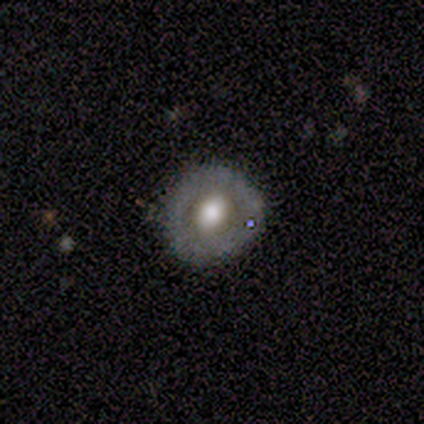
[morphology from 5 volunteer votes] Smooth or featured?
  - smooth: 60% *
  - featured or disk: 40%
  - star or artifact: 0%
How rounded?
  - round: 100% *
  - in between: 0%
  - cigar-shaped: 0%
Merging?
  - minor disturbance: 60% *
  - none: 40%
  - major disturbance: 0%
  - merger: 0%